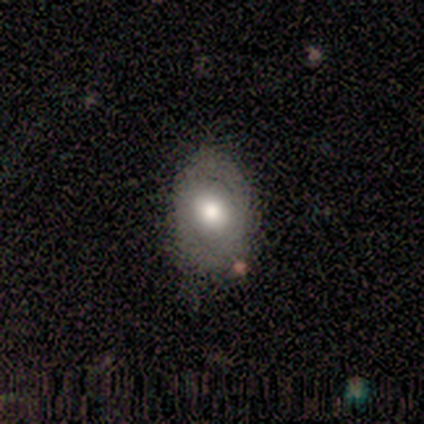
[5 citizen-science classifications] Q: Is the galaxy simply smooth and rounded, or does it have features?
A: smooth — 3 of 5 (60%).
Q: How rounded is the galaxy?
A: in between — 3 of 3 (100%).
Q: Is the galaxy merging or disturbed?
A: none — 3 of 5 (60%).